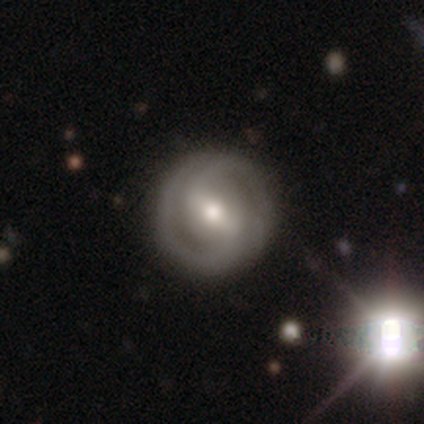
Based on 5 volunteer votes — A featured or disk galaxy (100%) with a strong bar (40%, tied with weak), 2 (80%) medium (80%) spiral arms (100%) and a moderate central bulge (80%).

Vote fractions:
- Smooth or featured? featured or disk: 100% / smooth: 0% / star or artifact: 0%
- Edge-on disk? no: 100% / yes: 0%
- Bar? strong: 40% (tied) / weak: 40% (tied) / no: 20%
- Spiral arms? yes: 100% / no: 0%
- Spiral winding? medium: 80% / loose: 20% / tight: 0%
- Spiral arm count? 2: 80% / can't tell: 20% / 1: 0% / 3: 0% / 4: 0% / more than 4: 0%
- Bulge size? moderate: 80% / small: 20% / dominant: 0% / large: 0% / none: 0%
- Merging? none: 100% / minor disturbance: 0% / major disturbance: 0% / merger: 0%